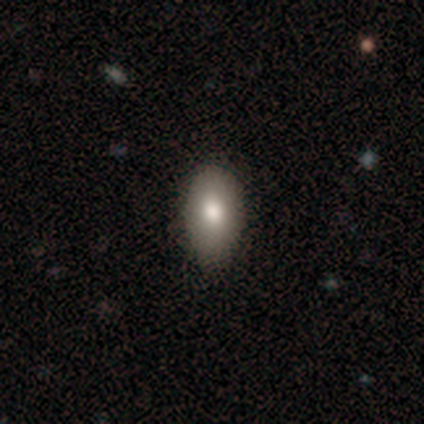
smooth-or-featured: smooth: 60% | featured or disk: 40% | star or artifact: 0%
  how-rounded: in between: 100% | round: 0% | cigar-shaped: 0%
  merging: none: 100% | minor disturbance: 0% | major disturbance: 0% | merger: 0%